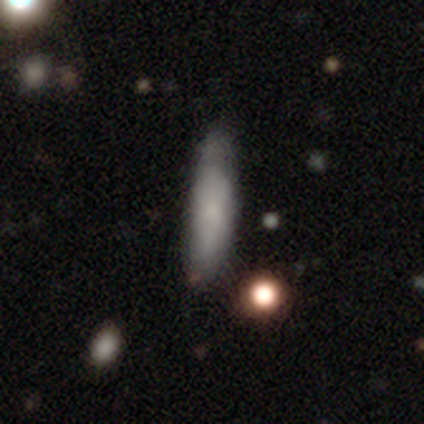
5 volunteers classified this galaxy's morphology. smooth-or-featured: smooth: 80% | featured or disk: 20% | star or artifact: 0%
  how-rounded: cigar-shaped: 75% | in between: 25% | round: 0%
  merging: none: 100% | minor disturbance: 0% | major disturbance: 0% | merger: 0%